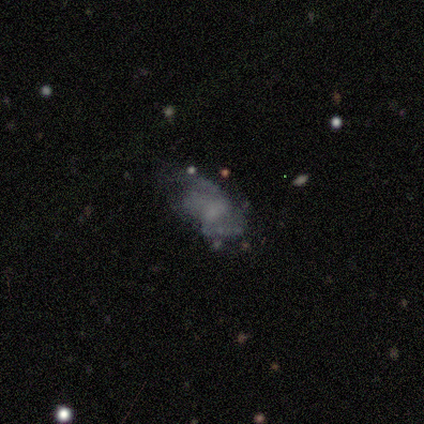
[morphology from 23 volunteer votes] featured or disk 65%, smooth 22%, star or artifact 13%. Down the decision tree: edge-on disk — no (93%); bar — no (50%); spiral arms — no (57%); bulge size — none (43%); merging — major disturbance (40%).